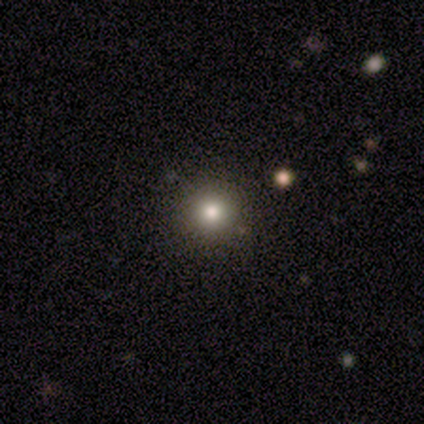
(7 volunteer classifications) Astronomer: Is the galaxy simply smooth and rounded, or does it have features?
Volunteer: smooth — 86%.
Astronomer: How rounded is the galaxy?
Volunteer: round — 100%.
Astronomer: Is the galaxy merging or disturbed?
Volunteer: none — 100%.